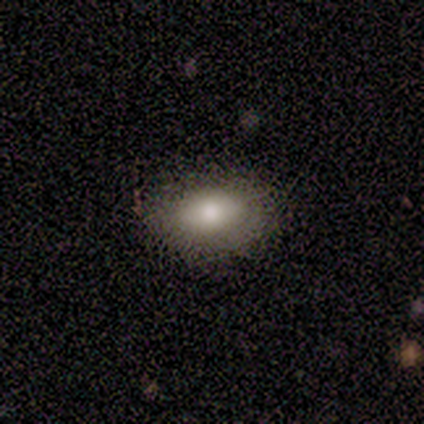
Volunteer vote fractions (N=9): A smooth galaxy with no disk features (78%) that is in between round and cigar-shaped (86%).

Vote fractions:
- Smooth or featured? smooth: 78% / featured or disk: 11% / star or artifact: 11%
- How rounded? in between: 86% / round: 14% / cigar-shaped: 0%
- Merging? minor disturbance: 62% / none: 38% / major disturbance: 0% / merger: 0%